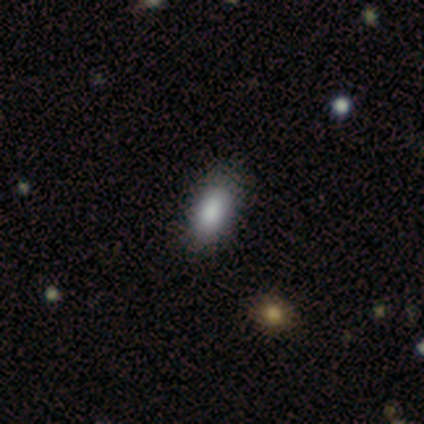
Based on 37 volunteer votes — Overall: smooth (73%). How rounded: in between (89%). Merging: none (77%).